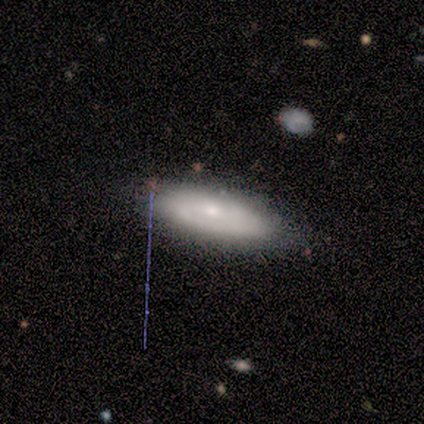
Smooth or featured?
  - featured or disk: 62% *
  - smooth: 38%
  - star or artifact: 0%
Edge-on disk?
  - no: 60% *
  - yes: 40%
Bar?
  - no: 100% *
  - strong: 0%
  - weak: 0%
Spiral arms?
  - yes: 67% *
  - no: 33%
Spiral winding?
  - tight: 100% *
  - medium: 0%
  - loose: 0%
Spiral arm count?
  - 2: 50% * (tied)
  - can't tell: 50% * (tied)
  - 1: 0%
  - 3: 0%
  - 4: 0%
  - more than 4: 0%
Bulge size?
  - small: 67% *
  - moderate: 33%
  - dominant: 0%
  - large: 0%
  - none: 0%
Merging?
  - none: 88% *
  - minor disturbance: 12%
  - major disturbance: 0%
  - merger: 0%